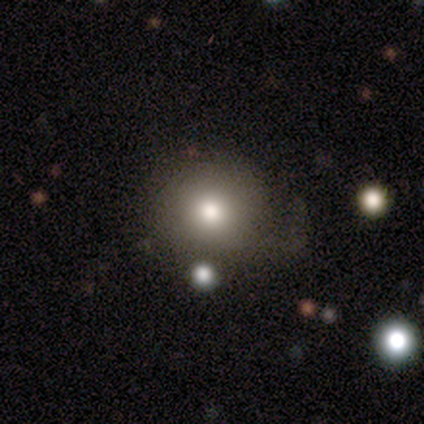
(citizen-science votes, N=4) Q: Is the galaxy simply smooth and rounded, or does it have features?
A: featured or disk — 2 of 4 (50%).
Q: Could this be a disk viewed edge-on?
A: no — 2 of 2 (100%).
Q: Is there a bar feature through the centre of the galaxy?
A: no — 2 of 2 (100%).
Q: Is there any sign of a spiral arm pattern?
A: no — 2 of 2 (100%).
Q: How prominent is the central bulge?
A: moderate — 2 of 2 (100%).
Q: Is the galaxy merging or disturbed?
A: none — 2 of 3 (67%).